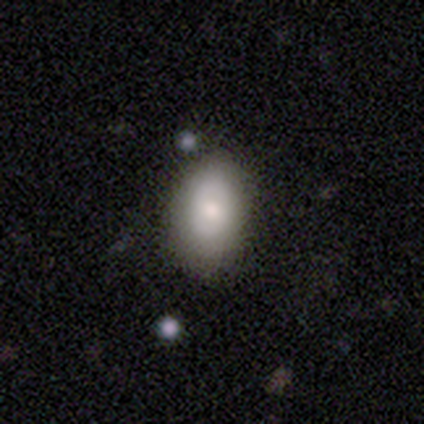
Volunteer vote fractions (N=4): smooth 75%, featured or disk 25%, star or artifact 0%. Down the decision tree: how rounded — in between (100%); merging — none (75%).